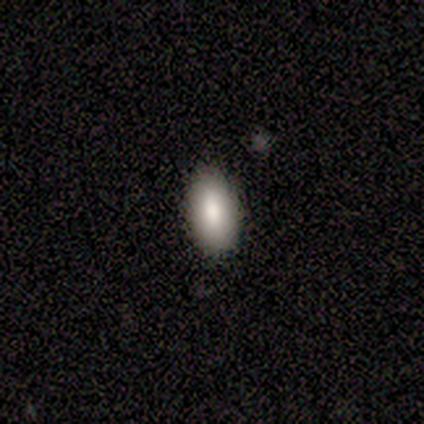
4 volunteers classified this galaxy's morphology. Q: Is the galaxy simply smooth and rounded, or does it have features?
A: smooth — 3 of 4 (75%).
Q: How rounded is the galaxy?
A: in between — 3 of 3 (100%).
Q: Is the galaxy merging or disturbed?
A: none — 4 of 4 (100%).